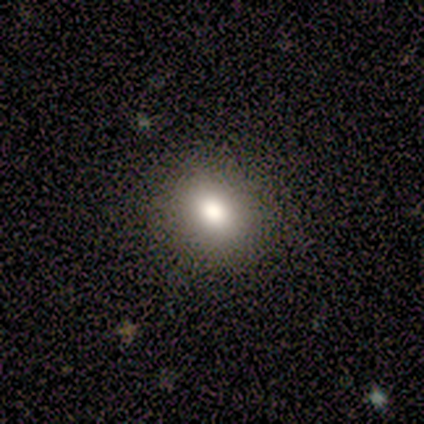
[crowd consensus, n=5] smooth_or_featured: smooth (p=1.00)
how_rounded: round (p=0.60) [alt: in between p=0.40]
merging: none (p=1.00)